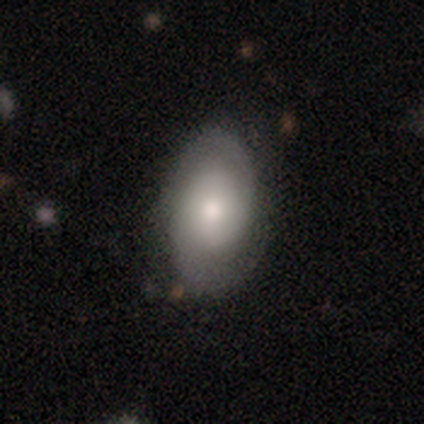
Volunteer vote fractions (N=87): Overall: featured or disk (55%; smooth 39%). Edge-on disk: no (92%). Bar: no (73%). Spiral arms: yes (91%). Spiral arm count: 2 (95%). Spiral winding: tight (45%; medium 42%). Bulge size: moderate (70%). Merging: none (68%).